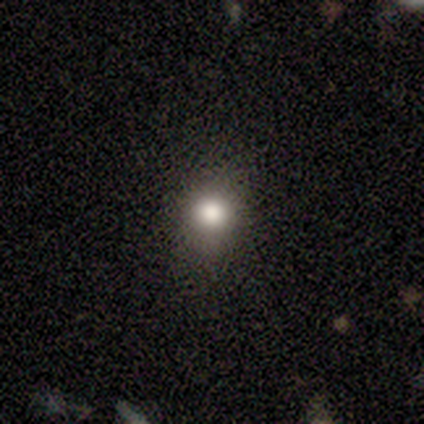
smooth-or-featured: smooth: 82% | star or artifact: 15% | featured or disk: 3%
  how-rounded: round: 84% | in between: 12% | cigar-shaped: 3%
  merging: none: 79% | minor disturbance: 21% | major disturbance: 0% | merger: 0%